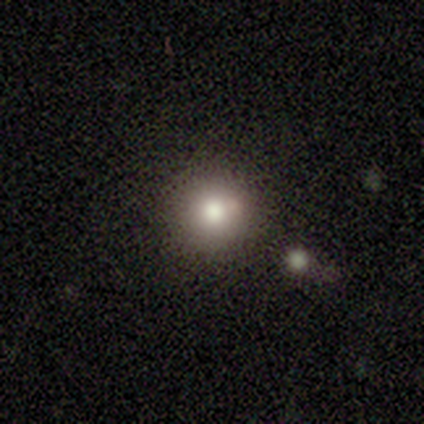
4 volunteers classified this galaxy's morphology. This appears to be a smooth galaxy with no disk features (50%, tied with star or artifact) that is round (100%). Merging: none (100%).